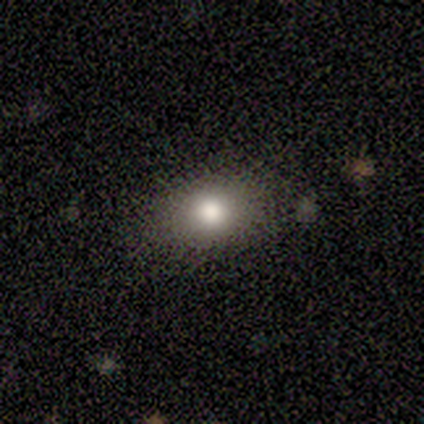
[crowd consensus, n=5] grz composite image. It shows a smooth galaxy with no disk features (100%) that is in between round and cigar-shaped (80%). Merging: none (100%).